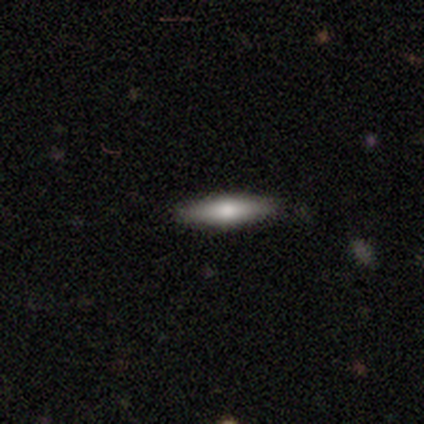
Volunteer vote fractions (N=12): Overall: smooth (50%; featured or disk 33%). How rounded: cigar-shaped (83%). Merging: none (60%; minor disturbance 40%).